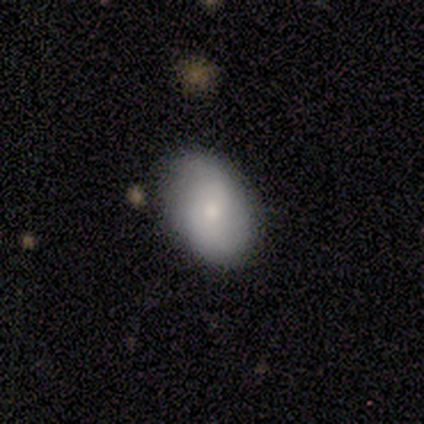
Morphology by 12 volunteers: Q: Smooth or featured?
A: smooth (67%); runner-up: featured or disk (25%)
Q: How rounded?
A: in between (88%); runner-up: round (12%)
Q: Merging?
A: none (91%); runner-up: minor disturbance (9%)